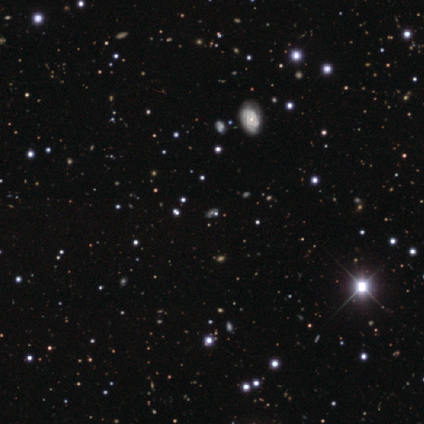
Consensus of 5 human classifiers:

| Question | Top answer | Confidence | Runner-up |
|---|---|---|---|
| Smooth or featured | featured or disk | 40% | tied: star or artifact (40%) |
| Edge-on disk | no | 100% | — |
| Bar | no | 100% | — |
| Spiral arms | yes | 50% | tied: no (50%) |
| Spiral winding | tight | 100% | — |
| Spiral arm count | can't tell | 100% | — |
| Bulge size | moderate | 50% | tied: small (50%) |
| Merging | none | 100% | — |